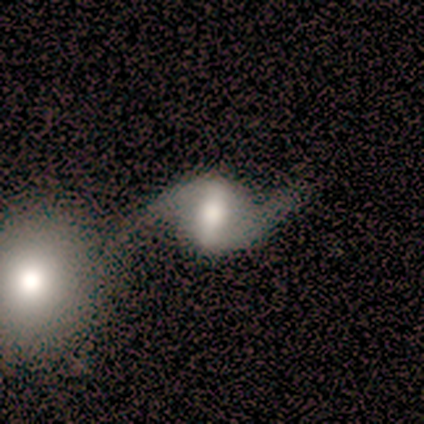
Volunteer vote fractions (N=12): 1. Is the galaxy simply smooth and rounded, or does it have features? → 100% featured or disk, 0% smooth, 0% star or artifact.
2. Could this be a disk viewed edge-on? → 92% no, 8% yes.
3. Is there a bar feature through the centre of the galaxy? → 73% strong, 27% weak, 0% no.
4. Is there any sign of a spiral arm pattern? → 100% yes, 0% no.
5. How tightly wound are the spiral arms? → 91% loose, 9% medium, 0% tight.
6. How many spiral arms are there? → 100% 2, 0% 1, 0% 3, 0% 4, 0% more than 4, 0% can't tell.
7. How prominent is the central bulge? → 36% moderate, 27% large, 18% dominant, 18% small, 0% none.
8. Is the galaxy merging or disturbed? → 50% none, 33% minor disturbance, 8% major disturbance, 8% merger.